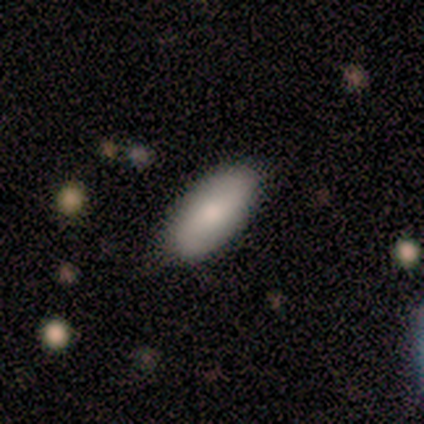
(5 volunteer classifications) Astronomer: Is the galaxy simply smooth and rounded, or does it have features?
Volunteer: smooth — 60% (runner-up: featured or disk, 40%).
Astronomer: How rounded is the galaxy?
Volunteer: in between — 67%.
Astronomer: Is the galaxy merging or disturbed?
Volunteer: none — 80%.